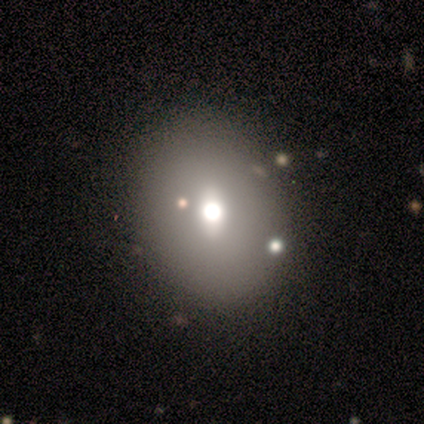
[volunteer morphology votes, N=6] Smooth or featured?
  - smooth: 67% *
  - featured or disk: 33%
  - star or artifact: 0%
How rounded?
  - round: 50% * (tied)
  - in between: 50% * (tied)
  - cigar-shaped: 0%
Merging?
  - none: 83% *
  - minor disturbance: 17%
  - major disturbance: 0%
  - merger: 0%